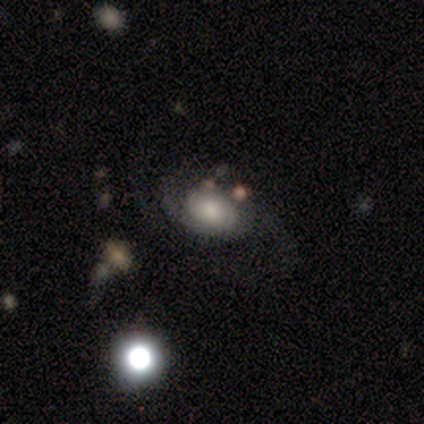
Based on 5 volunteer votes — Smooth or featured: featured or disk — 80% (star or artifact — 20%)
Edge-on disk: no — 100%
Bar: no — 100%
Spiral arms: yes — 100%
Spiral winding: tight — 50% (medium — 25%)
Spiral arm count: can't tell — 75% (2 — 25%)
Bulge size: moderate — 50% (large — 25%)
Merging: none — 100%